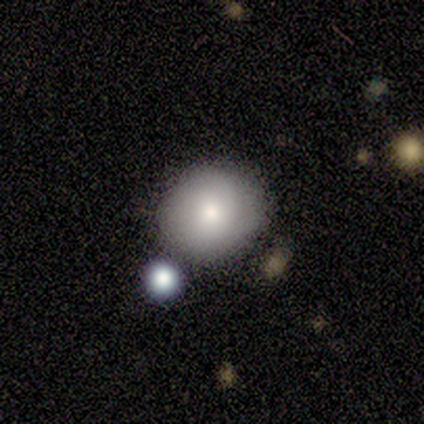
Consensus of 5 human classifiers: smooth 80%, featured or disk 20%, star or artifact 0%. Down the decision tree: how rounded — round (100%); merging — none (80%).